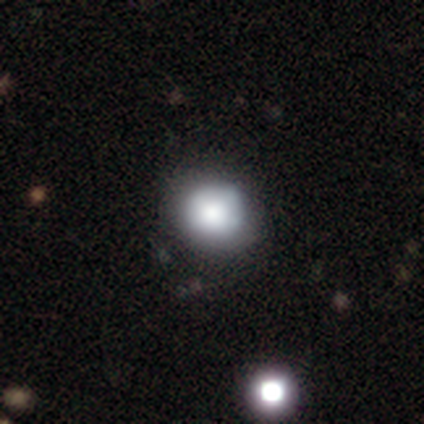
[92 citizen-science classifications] This is likely a smooth galaxy (75%). How rounded: likely round (78%). Merging: clearly none (83%).